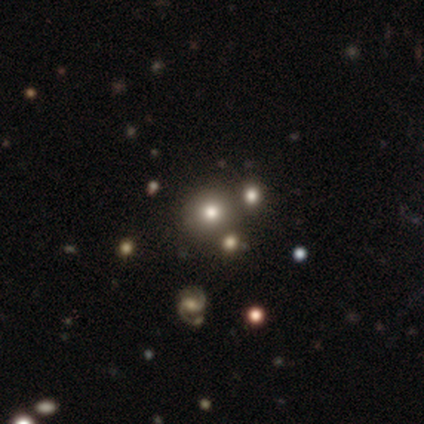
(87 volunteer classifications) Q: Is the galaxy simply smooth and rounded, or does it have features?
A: smooth — 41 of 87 (47%).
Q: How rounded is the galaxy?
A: round — 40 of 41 (98%).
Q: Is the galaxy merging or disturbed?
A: none — 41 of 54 (76%).